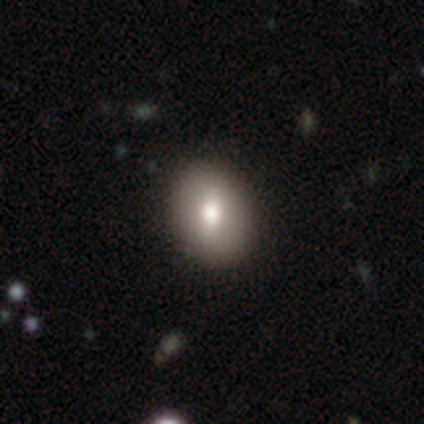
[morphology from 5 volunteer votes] This appears to be a smooth galaxy with no disk features (80%) that is round (50%, tied with in between). Merging: none (80%).